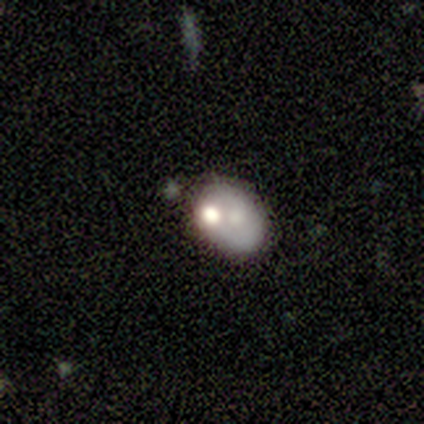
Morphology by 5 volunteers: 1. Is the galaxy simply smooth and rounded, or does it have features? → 40% smooth (tied), 40% star or artifact (tied), 20% featured or disk.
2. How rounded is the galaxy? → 100% in between, 0% round, 0% cigar-shaped.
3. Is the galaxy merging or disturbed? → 67% none, 33% major disturbance, 0% minor disturbance, 0% merger.